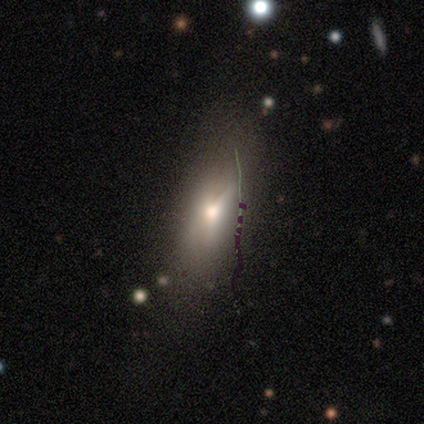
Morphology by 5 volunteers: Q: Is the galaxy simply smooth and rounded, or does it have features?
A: featured or disk — 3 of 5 (60%).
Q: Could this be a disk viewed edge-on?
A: no — 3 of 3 (100%).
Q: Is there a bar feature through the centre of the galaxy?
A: no — 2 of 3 (67%).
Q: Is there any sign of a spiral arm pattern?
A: no — 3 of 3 (100%).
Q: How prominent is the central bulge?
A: moderate — 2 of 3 (67%).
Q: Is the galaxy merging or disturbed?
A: none — 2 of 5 (40%, tied with minor disturbance).